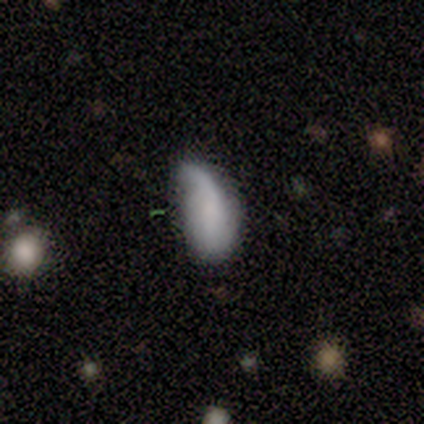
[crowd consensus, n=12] smooth-or-featured: smooth: 83% | featured or disk: 17% | star or artifact: 0%
  how-rounded: in between: 70% | cigar-shaped: 20% | round: 10%
  merging: minor disturbance: 42% | none: 33% | major disturbance: 25% | merger: 0%